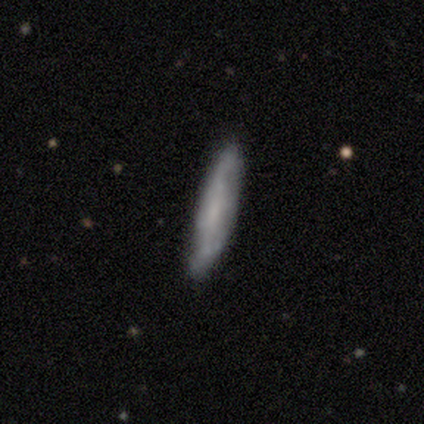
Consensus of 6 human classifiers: Smooth or featured? 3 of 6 (50%) said featured or disk. Edge-on disk? 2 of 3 (67%) said yes. Edge-on bulge? 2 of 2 (100%) said none. Merging? 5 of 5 (100%) said none.